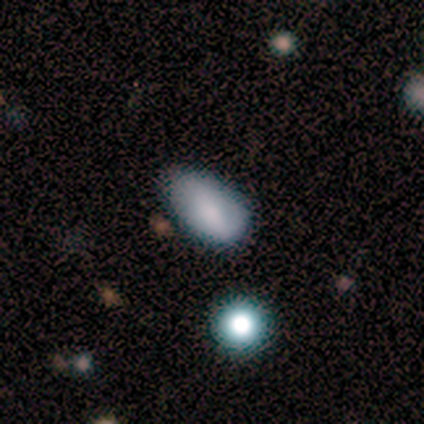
Q: Smooth or featured?
A: smooth (82%); runner-up: featured or disk (18%)
Q: How rounded?
A: in between (100%)
Q: Merging?
A: minor disturbance (45%); runner-up: none (36%)